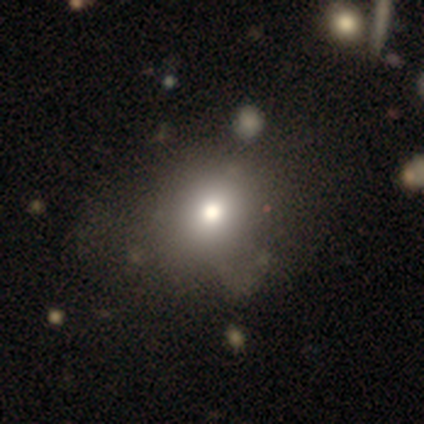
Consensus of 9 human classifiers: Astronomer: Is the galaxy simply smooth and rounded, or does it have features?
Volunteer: smooth — 89%.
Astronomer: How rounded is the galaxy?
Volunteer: round — 100%.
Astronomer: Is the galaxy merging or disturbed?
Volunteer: none — 100%.